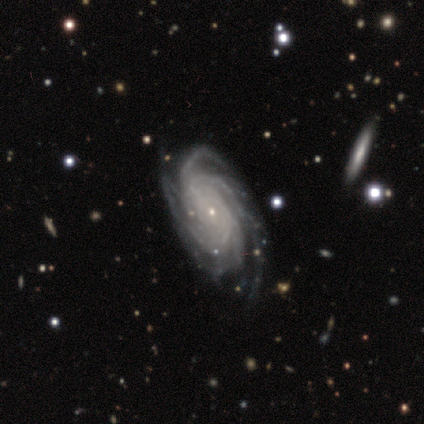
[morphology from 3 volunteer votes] featured or disk 67%, smooth 33%, star or artifact 0%. Down the decision tree: edge-on disk — no (100%); bar — no (100%); spiral arms — yes (100%); spiral arm count — 4 (50%, tied with more than 4); spiral winding — tight (100%); bulge size — small (100%); merging — none (33%, tied with minor disturbance and merger).